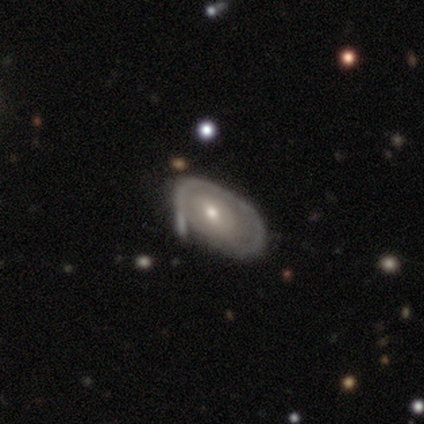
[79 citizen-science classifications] smooth-or-featured: featured or disk: 71% | smooth: 28% | star or artifact: 1%
  disk-edge-on: no: 91% | yes: 9%
    bar: no: 55% | weak: 35% | strong: 10%
    has-spiral-arms: yes: 61% | no: 39%
      spiral-winding: tight: 68% | medium: 23% | loose: 10%
      spiral-arm-count: can't tell: 55% | 1: 35% | 2: 10% | 3: 0% | 4: 0% | more than 4: 0%
    bulge-size: moderate: 51% | small: 45% | large: 2% | none: 2% | dominant: 0%
  merging: minor disturbance: 23% | none: 15% | major disturbance: 12% | merger: 5%